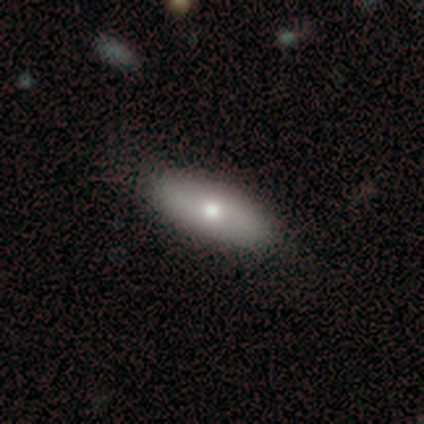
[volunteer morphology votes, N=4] A featured or disk galaxy (75%) with no bar (100%), no spiral arms (67%) and a small central bulge (67%). Merging: none (50%, tied with minor disturbance).